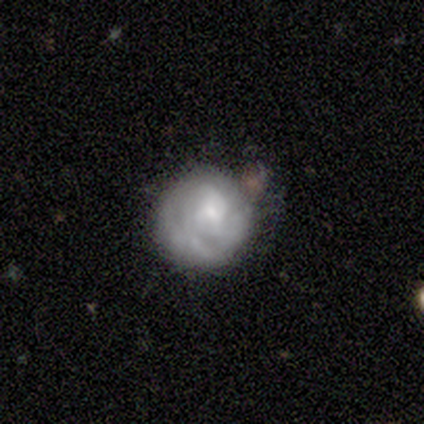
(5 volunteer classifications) This appears to be a featured or disk galaxy (60%) with no bar (100%), no spiral arms (100%) and a small central bulge (67%). Merging: none (75%).